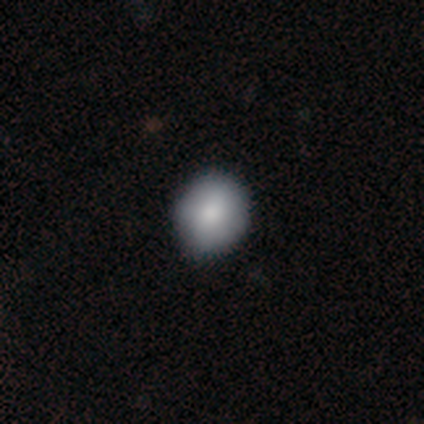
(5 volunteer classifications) Q: Smooth or featured?
A: smooth (80%); runner-up: star or artifact (20%)
Q: How rounded?
A: round (75%); runner-up: in between (25%)
Q: Merging?
A: none (75%); runner-up: minor disturbance (25%)